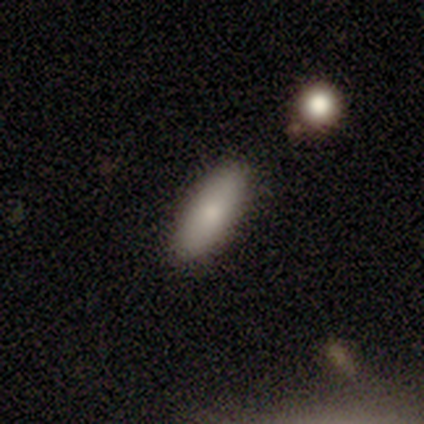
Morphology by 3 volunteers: Smooth or featured? 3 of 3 (100%) said smooth. How rounded? 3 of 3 (100%) said in between. Merging? 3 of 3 (100%) said none.